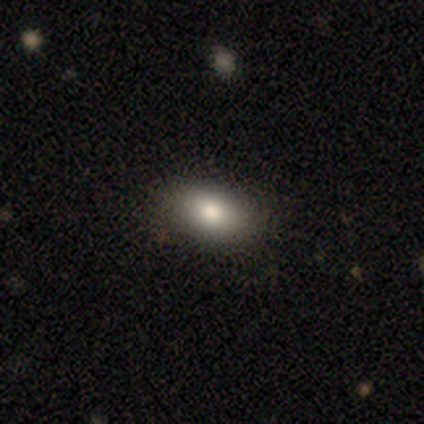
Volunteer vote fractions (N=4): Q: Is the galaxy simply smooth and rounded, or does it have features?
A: smooth — 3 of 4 (75%).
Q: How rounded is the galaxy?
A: in between — 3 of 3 (100%).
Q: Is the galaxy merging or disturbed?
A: none — 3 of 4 (75%).